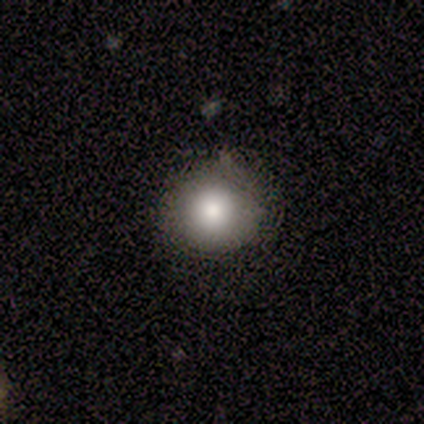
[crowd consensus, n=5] Smooth or featured: smooth — 80% (star or artifact — 20%)
How rounded: round — 100%
Merging: none — 100%